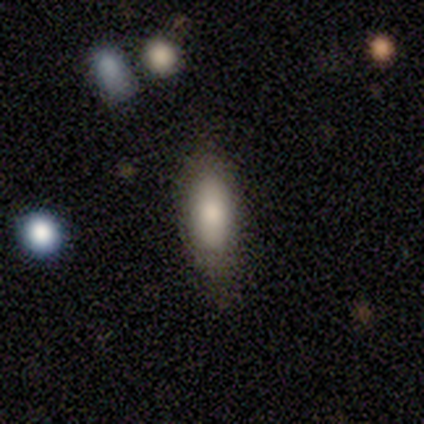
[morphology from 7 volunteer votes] Smooth or featured?
  - smooth: 100% *
  - featured or disk: 0%
  - star or artifact: 0%
How rounded?
  - in between: 71% *
  - cigar-shaped: 29%
  - round: 0%
Merging?
  - none: 100% *
  - minor disturbance: 0%
  - major disturbance: 0%
  - merger: 0%